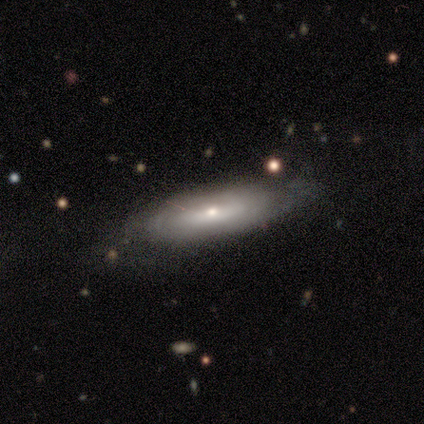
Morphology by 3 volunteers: Overall: featured or disk (67%; smooth 33%). Edge-on disk: no (100%). Bar: strong (50%, tied with weak). Spiral arms: yes (100%). Spiral arm count: 2 (50%, tied with can't tell). Spiral winding: tight (50%, tied with medium). Bulge size: large (50%, tied with small). Merging: major disturbance (67%; none 33%).